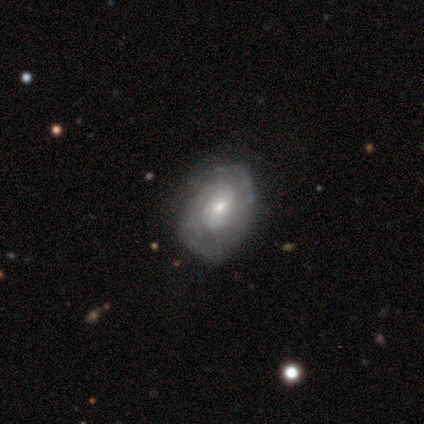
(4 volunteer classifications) Smooth or featured? 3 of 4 (75%) said featured or disk. Edge-on disk? 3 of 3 (100%) said no. Bar? 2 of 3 (67%) said no. Spiral arms? 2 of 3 (67%) said yes. Spiral winding? 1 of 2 (50%, tied with loose) said tight. Spiral arm count? 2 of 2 (100%) said 2. Bulge size? 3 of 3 (100%) said small. Merging? 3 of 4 (75%) said none.